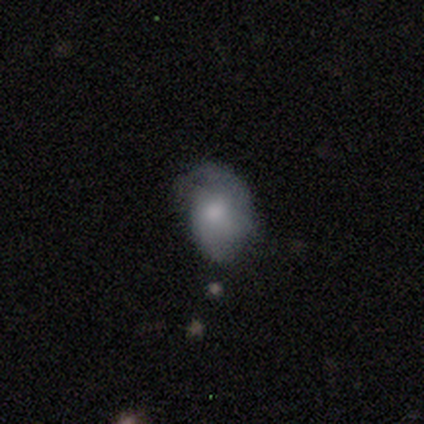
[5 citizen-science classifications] smooth-or-featured: smooth: 60% | featured or disk: 40% | star or artifact: 0%
  how-rounded: in between: 67% | round: 33% | cigar-shaped: 0%
  merging: minor disturbance: 40% (tied) | major disturbance: 40% (tied) | none: 20% | merger: 0%